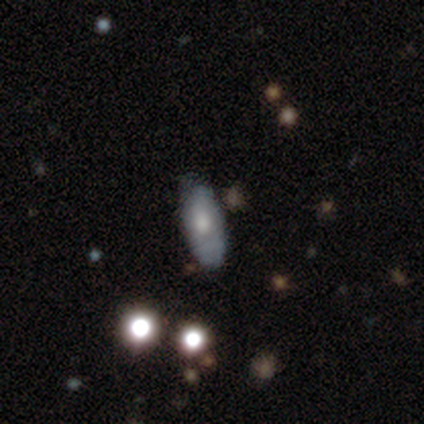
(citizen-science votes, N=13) Smooth or featured: smooth — 54% (star or artifact — 31%)
How rounded: in between — 86% (cigar-shaped — 14%)
Merging: none — 89% (minor disturbance — 11%)